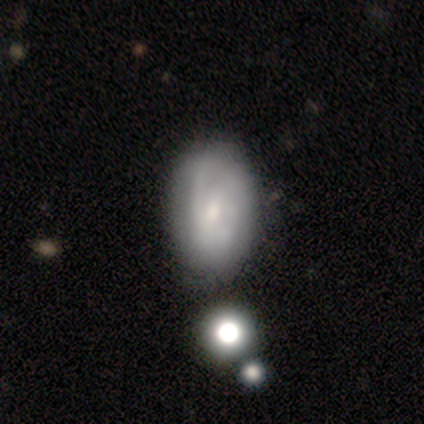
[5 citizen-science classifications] Q: Smooth or featured?
A: smooth (60%); runner-up: featured or disk (40%)
Q: How rounded?
A: in between (100%)
Q: Merging?
A: none (60%); runner-up: minor disturbance (20%)